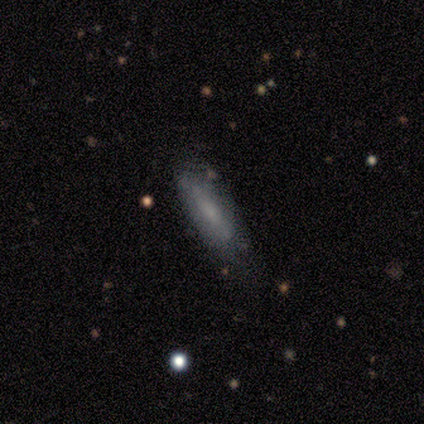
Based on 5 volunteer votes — smooth-or-featured: smooth: 100% | featured or disk: 0% | star or artifact: 0%
  how-rounded: in between: 60% | cigar-shaped: 40% | round: 0%
  merging: none: 80% | minor disturbance: 20% | major disturbance: 0% | merger: 0%